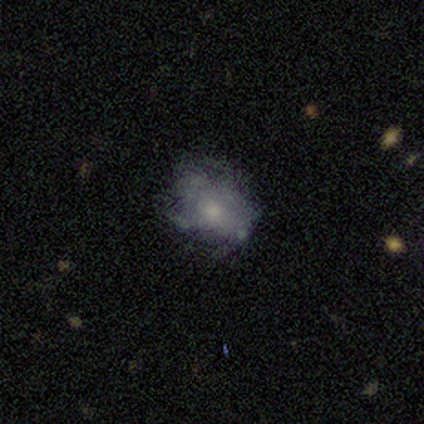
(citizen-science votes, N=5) Overall: smooth (80%). How rounded: in between (75%). Merging: none (80%).